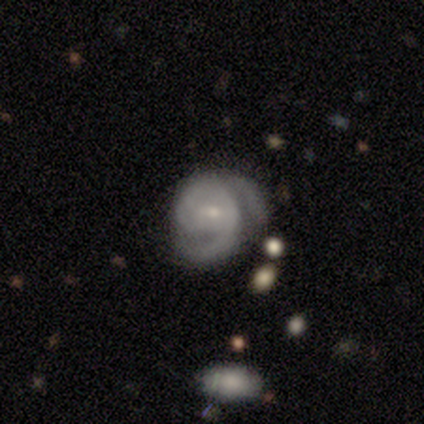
Smooth or featured? 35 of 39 (90%) said featured or disk. Edge-on disk? 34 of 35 (97%) said no. Bar? 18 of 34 (53%) said weak. Spiral arms? 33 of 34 (97%) said yes. Spiral winding? 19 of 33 (58%) said medium. Spiral arm count? 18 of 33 (55%) said 2. Bulge size? 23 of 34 (68%) said small. Merging? 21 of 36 (58%) said none.